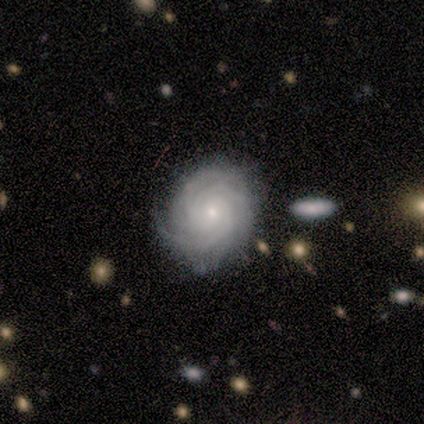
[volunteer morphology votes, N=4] smooth_or_featured: featured or disk (p=1.00)
disk_edge_on: no (p=1.00)
bar: weak (p=0.50) [tied with: no p=0.50]
has_spiral_arms: yes (p=1.00)
spiral_winding: tight (p=0.75) [alt: loose p=0.25]
spiral_arm_count: can't tell (p=0.75) [alt: more than 4 p=0.25]
bulge_size: small (p=0.75) [alt: moderate p=0.25]
merging: none (p=0.50) [tied with: minor disturbance p=0.50]